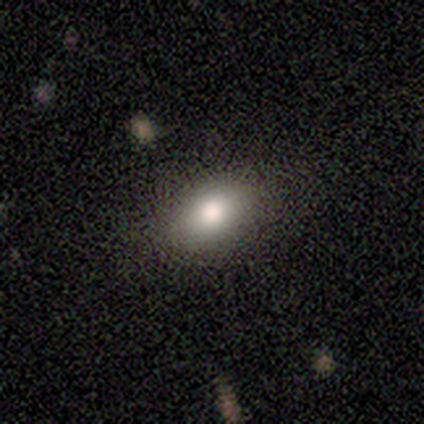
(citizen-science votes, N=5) This is clearly a smooth galaxy (80%). How rounded: clearly in between (100%). Merging: clearly none (80%).